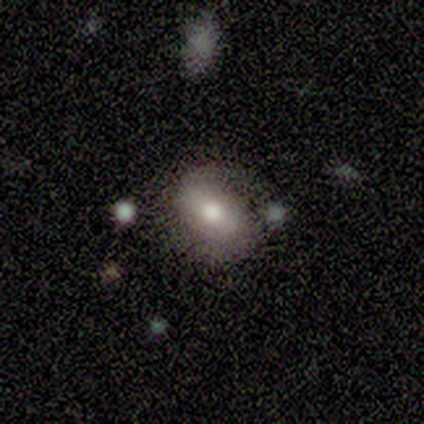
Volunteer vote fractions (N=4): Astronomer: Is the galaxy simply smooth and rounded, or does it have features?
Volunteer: smooth — 50%, tied with featured or disk at 50%.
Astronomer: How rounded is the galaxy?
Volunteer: round — 50%, tied with in between at 50%.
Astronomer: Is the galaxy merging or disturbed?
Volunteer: none — 50%.